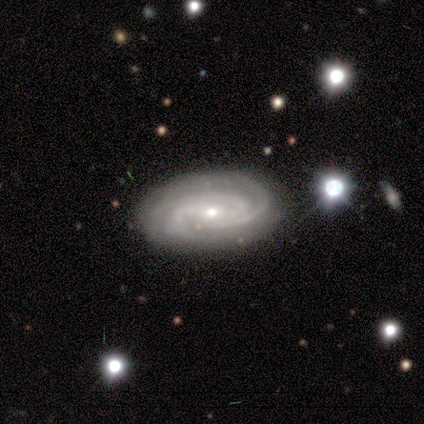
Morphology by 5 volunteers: featured or disk 80%, smooth 20%, star or artifact 0%. Down the decision tree: edge-on disk — no (100%); bar — no (75%); spiral arms — yes (100%); spiral arm count — 3 (100%); spiral winding — tight (50%, tied with medium); bulge size — small (75%); merging — none (80%).